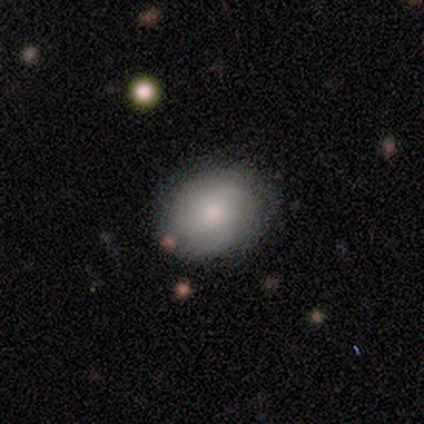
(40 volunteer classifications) A smooth galaxy with no disk features (80%) that is round (53%).

Vote fractions:
- Smooth or featured? smooth: 80% / featured or disk: 15% / star or artifact: 5%
- How rounded? round: 53% / in between: 47% / cigar-shaped: 0%
- Merging? none: 76% / minor disturbance: 16% / major disturbance: 5% / merger: 3%